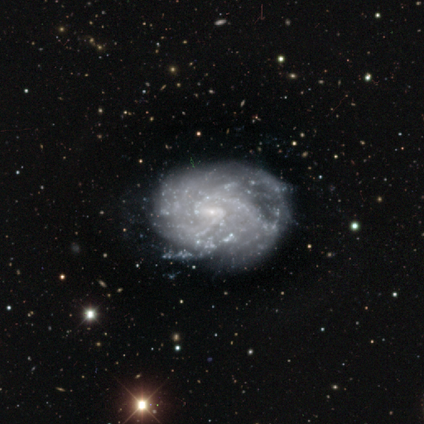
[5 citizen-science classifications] Overall: featured or disk (80%). Edge-on disk: no (100%). Bar: weak (75%). Spiral arms: yes (75%). Spiral arm count: 2 (67%; can't tell 33%). Spiral winding: tight (33%, tied with medium and loose). Bulge size: small (100%). Merging: none (75%).